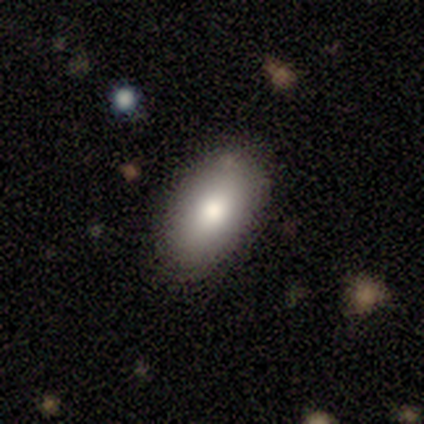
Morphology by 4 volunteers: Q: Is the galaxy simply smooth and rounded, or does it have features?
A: smooth — 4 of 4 (100%).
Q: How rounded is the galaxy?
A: in between — 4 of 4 (100%).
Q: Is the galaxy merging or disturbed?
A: none — 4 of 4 (100%).